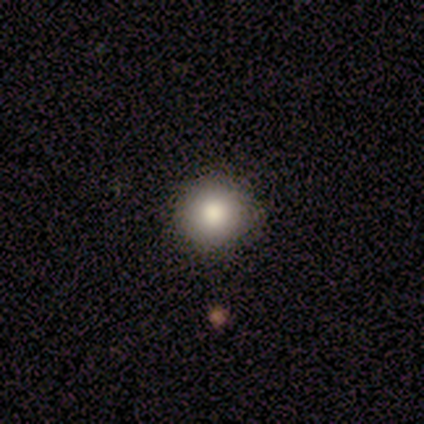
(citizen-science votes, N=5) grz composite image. It shows a smooth galaxy with no disk features (60%) that is round (100%). Merging: none (60%).